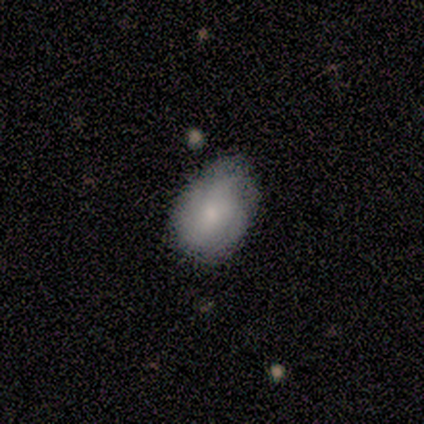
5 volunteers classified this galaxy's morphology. Smooth or featured? smooth (60%)
How rounded? in between (100%)
Merging? none (100%)